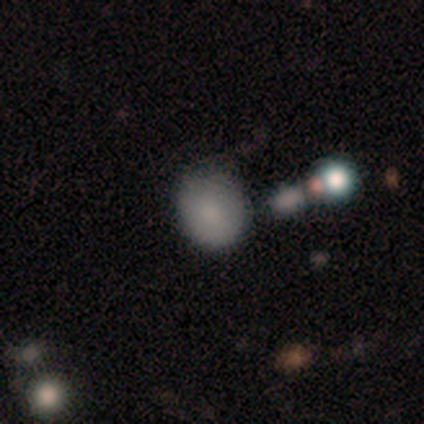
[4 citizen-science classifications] Smooth or featured: featured or disk — 50% (smooth — 25%)
Edge-on disk: no — 100%
Bar: no — 100%
Spiral arms: no — 100%
Bulge size: moderate — 50% (tied with small — 50%)
Merging: none — 67% (minor disturbance — 33%)